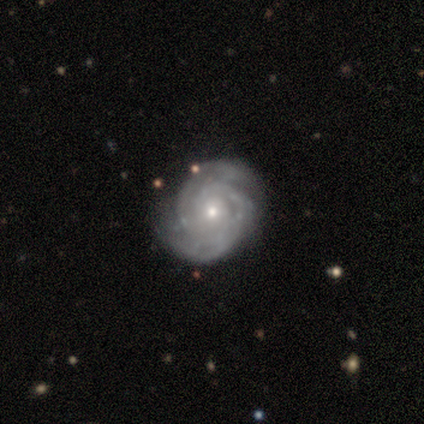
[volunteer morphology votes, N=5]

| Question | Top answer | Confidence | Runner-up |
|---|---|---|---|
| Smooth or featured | featured or disk | 100% | — |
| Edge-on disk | no | 100% | — |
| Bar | no | 100% | — |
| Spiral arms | yes | 100% | — |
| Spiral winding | tight | 100% | — |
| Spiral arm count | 2 | 60% | 3 (20%) |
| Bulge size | small | 80% | moderate (20%) |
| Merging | none | 60% | minor disturbance (40%) |